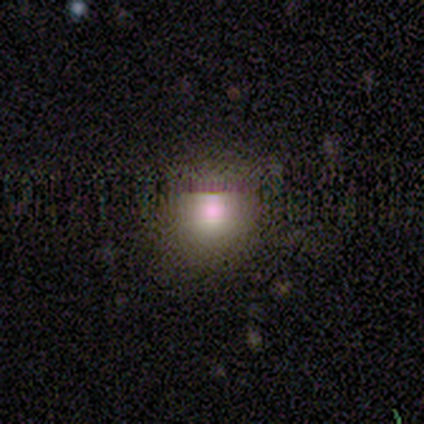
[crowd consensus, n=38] Volunteers were most divided on "smooth or featured": smooth: 63%, star or artifact: 24%, featured or disk: 13%. More confident: how rounded — round (88%); merging — none (79%).